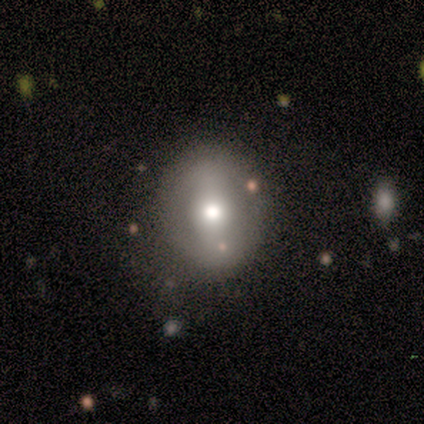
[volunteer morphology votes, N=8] A featured or disk galaxy (50%) with no bar (75%), no spiral arms (75%) and a moderate central bulge (100%).

Vote fractions:
- Smooth or featured? featured or disk: 50% / smooth: 38% / star or artifact: 12%
- Edge-on disk? no: 100% / yes: 0%
- Bar? no: 75% / strong: 25% / weak: 0%
- Spiral arms? no: 75% / yes: 25%
- Bulge size? moderate: 100% / dominant: 0% / large: 0% / small: 0% / none: 0%
- Merging? none: 86% / minor disturbance: 14% / major disturbance: 0% / merger: 0%